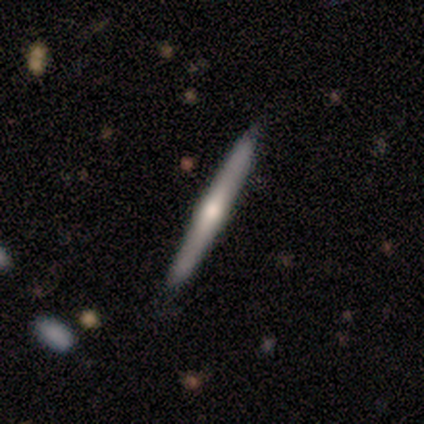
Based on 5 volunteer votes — smooth_or_featured: smooth (p=0.80) [alt: featured or disk p=0.20]
how_rounded: cigar-shaped (p=1.00)
merging: none (p=0.80) [alt: minor disturbance p=0.20]